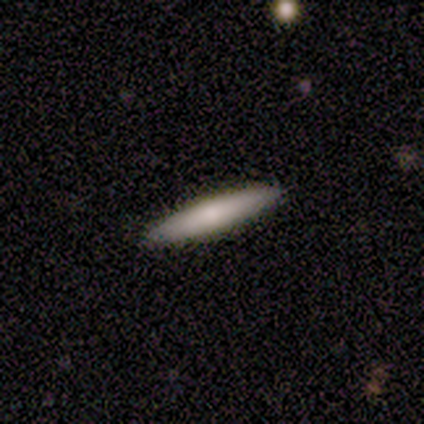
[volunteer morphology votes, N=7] Smooth or featured: smooth — 43% (featured or disk — 29%)
How rounded: cigar-shaped — 100%
Merging: none — 100%